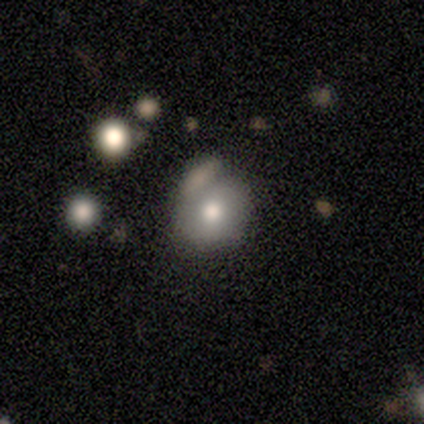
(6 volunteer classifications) smooth-or-featured: smooth: 50% | star or artifact: 33% | featured or disk: 17%
  how-rounded: round: 100% | in between: 0% | cigar-shaped: 0%
  merging: none: 75% | minor disturbance: 25% | major disturbance: 0% | merger: 0%